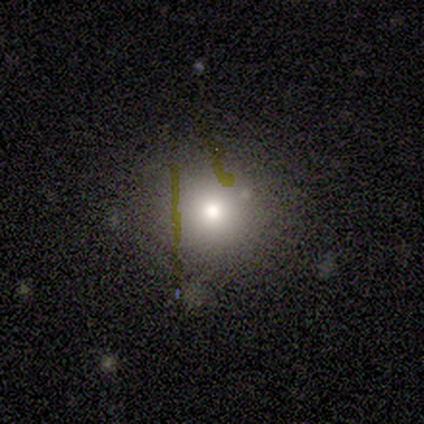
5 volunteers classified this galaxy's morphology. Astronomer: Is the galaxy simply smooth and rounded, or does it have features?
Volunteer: smooth — 80%.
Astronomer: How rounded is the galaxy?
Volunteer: round — 75%.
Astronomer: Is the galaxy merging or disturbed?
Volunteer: none — 80%.